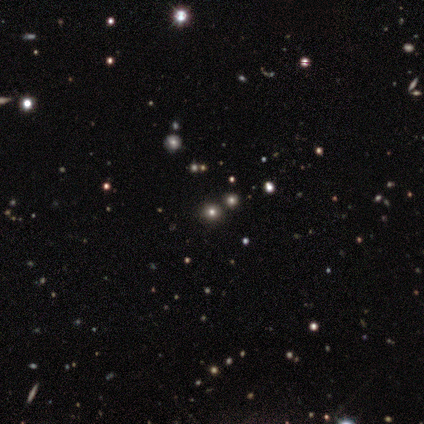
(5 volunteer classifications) This is clearly a star or artifact rather than a galaxy (80%).